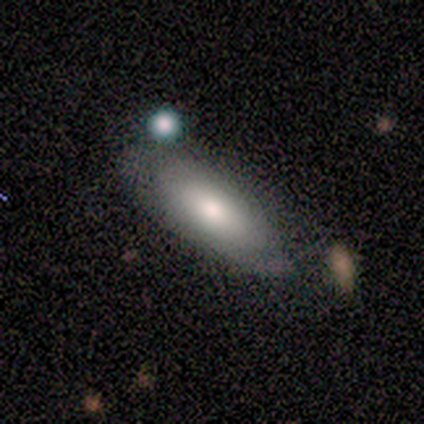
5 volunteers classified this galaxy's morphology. This appears to be a smooth galaxy with no disk features (40%, tied with featured or disk) that is in between round and cigar-shaped (100%). Merging: none (50%, tied with minor disturbance).